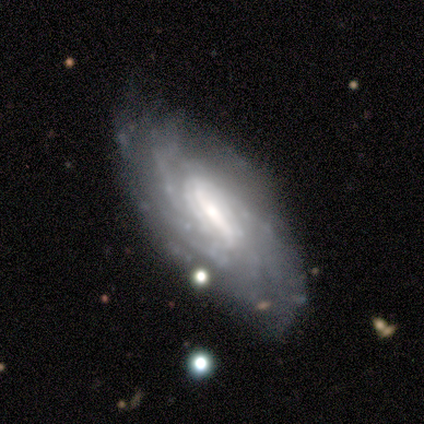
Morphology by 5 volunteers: Volunteers were most divided on "spiral arm count" (2-way tie): 3: 40%, can't tell: 40%, 4: 20%, 1: 0%, 2: 0%, more than 4: 0%. Remaining: smooth or featured — featured or disk (100%); edge-on disk — no (100%); spiral arms — yes (100%); bar — weak (80%); spiral winding — tight (80%); merging — none (80%); bulge size — moderate (40%).